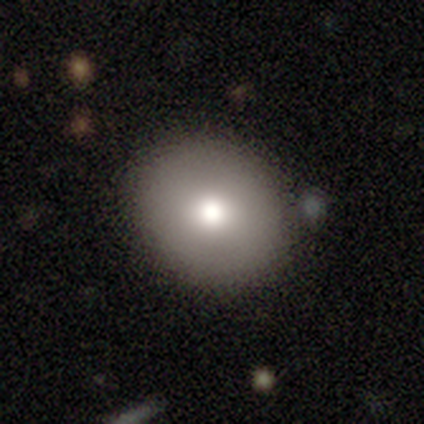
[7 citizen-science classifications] Volunteers were most divided on "smooth or featured": smooth: 43%, featured or disk: 29%, star or artifact: 29%. More confident: merging — none (100%); how rounded — round (67%).